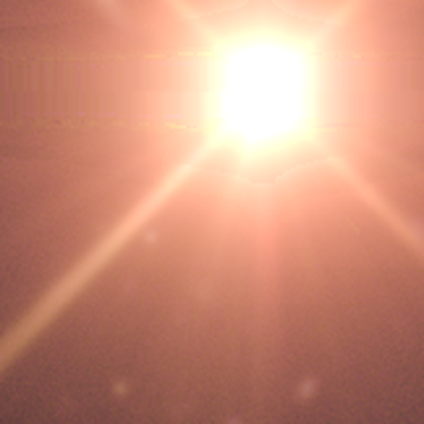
A star or artifact, not a galaxy (95%).